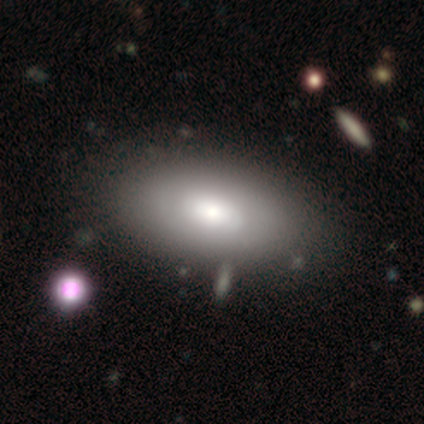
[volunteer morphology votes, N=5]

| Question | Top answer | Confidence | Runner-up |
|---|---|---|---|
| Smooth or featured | smooth | 80% | featured or disk (20%) |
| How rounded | in between | 100% | — |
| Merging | none | 60% | minor disturbance (40%) |